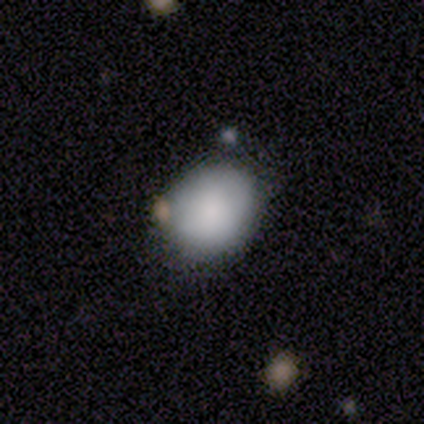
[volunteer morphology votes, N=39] Smooth or featured? 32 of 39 (82%) said smooth. How rounded? 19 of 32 (59%) said in between. Merging? 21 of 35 (60%) said none.